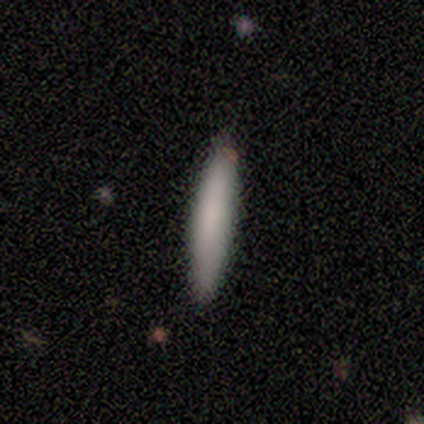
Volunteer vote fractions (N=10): A smooth galaxy with no disk features (60%) that is cigar-shaped (100%).

Vote fractions:
- Smooth or featured? smooth: 60% / featured or disk: 40% / star or artifact: 0%
- How rounded? cigar-shaped: 100% / round: 0% / in between: 0%
- Merging? none: 90% / minor disturbance: 10% / major disturbance: 0% / merger: 0%